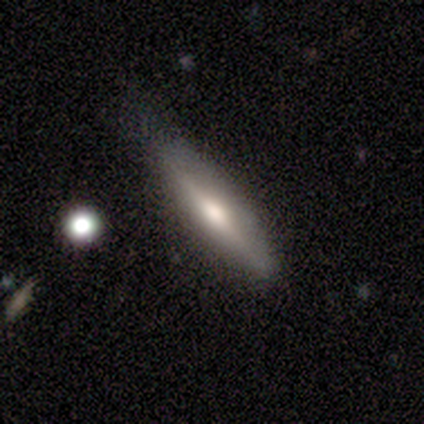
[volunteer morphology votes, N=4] Smooth or featured? smooth (100%)
How rounded? cigar-shaped (100%)
Merging? minor disturbance (50%)